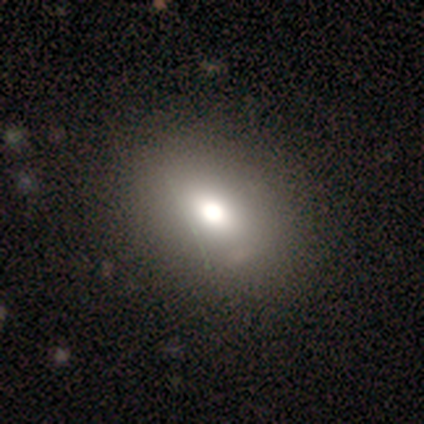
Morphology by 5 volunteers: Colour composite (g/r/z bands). It shows a smooth galaxy with no disk features (80%) that is in between round and cigar-shaped (75%). Merging: none (100%).